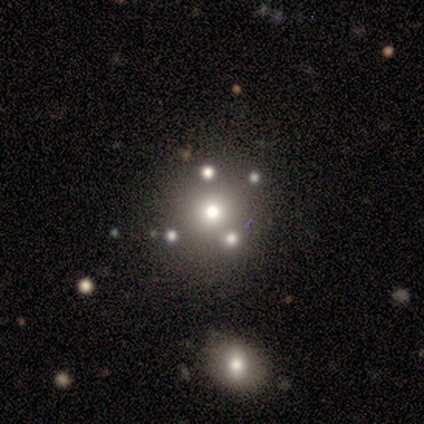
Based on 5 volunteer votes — This is marginally a smooth galaxy (40%, tied with star or artifact). How rounded: clearly round (100%). Merging: clearly none (100%).